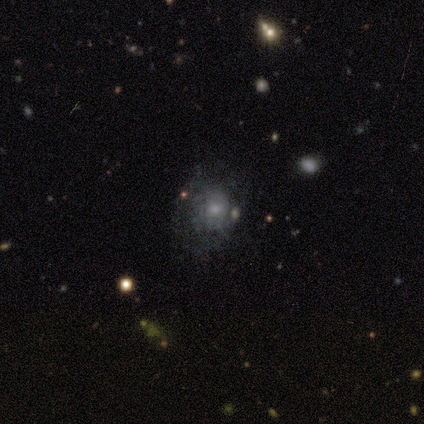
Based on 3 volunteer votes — Morphology: type=smooth (67%); roundness=round (50%, tied with in between); merging=none (67%).